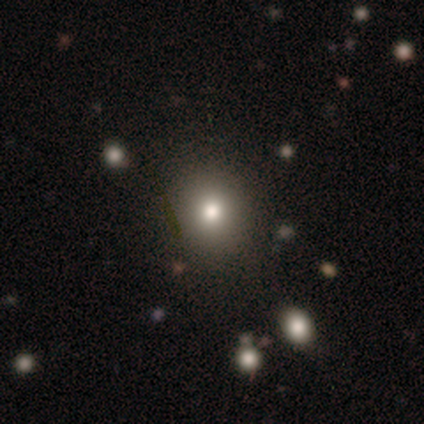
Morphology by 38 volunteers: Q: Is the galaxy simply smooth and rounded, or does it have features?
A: smooth — 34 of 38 (89%).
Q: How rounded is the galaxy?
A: round — 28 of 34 (82%).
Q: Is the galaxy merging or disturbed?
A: none — 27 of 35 (77%).